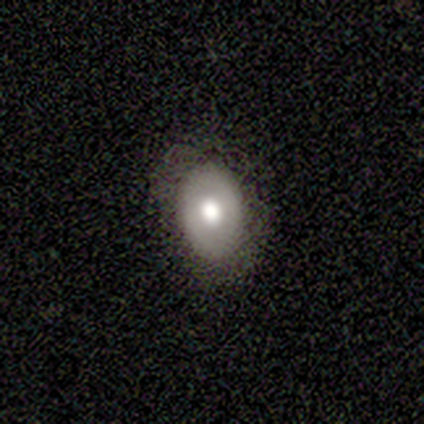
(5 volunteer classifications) This appears to be a smooth galaxy with no disk features (60%) that is in between round and cigar-shaped (67%). Merging: none (100%).